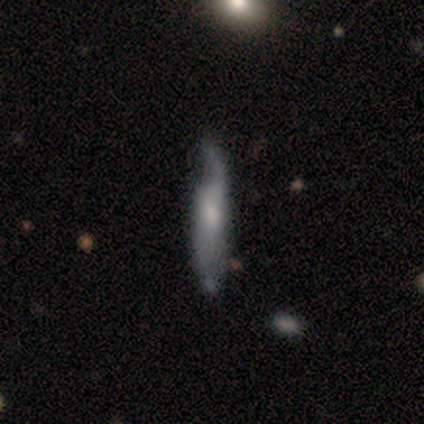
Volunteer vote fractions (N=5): Smooth or featured: smooth — 60% (featured or disk — 40%)
How rounded: cigar-shaped — 100%
Merging: minor disturbance — 60% (none — 40%)